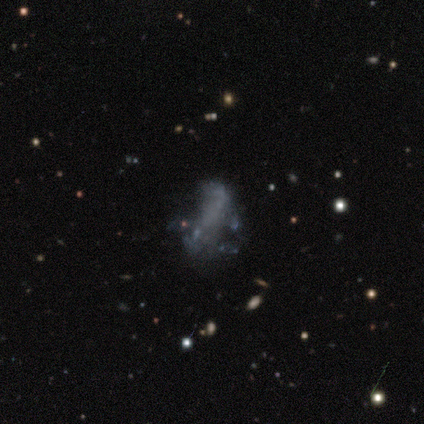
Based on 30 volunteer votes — featured or disk 43%, star or artifact 33%, smooth 23%. Down the decision tree: edge-on disk — no (100%); bar — no (100%); spiral arms — no (92%); bulge size — none (100%); merging — none (40%).